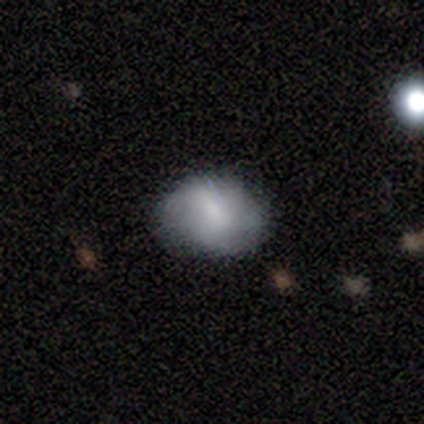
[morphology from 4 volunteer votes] Q: Smooth or featured?
A: smooth (75%); runner-up: featured or disk (25%)
Q: How rounded?
A: round (100%)
Q: Merging?
A: none (100%)